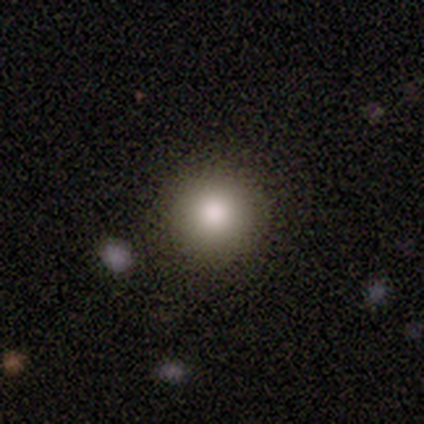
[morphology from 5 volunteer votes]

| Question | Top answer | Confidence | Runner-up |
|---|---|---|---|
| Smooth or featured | smooth | 80% | star or artifact (20%) |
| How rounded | round | 100% | — |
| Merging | none | 100% | — |